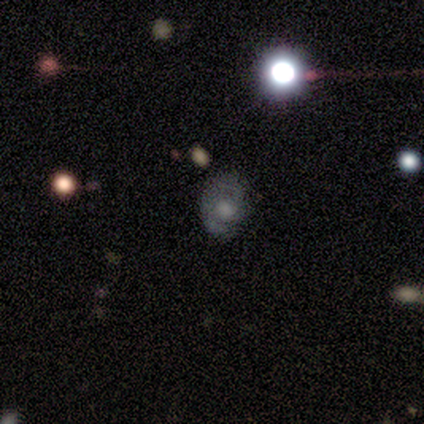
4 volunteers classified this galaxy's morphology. Smooth or featured: featured or disk — 75% (smooth — 25%)
Edge-on disk: no — 100%
Bar: no — 67% (weak — 33%)
Spiral arms: yes — 100%
Spiral winding: tight — 100%
Spiral arm count: 1 — 67% (3 — 33%)
Bulge size: moderate — 33% (tied with small — 33%; none — 33%)
Merging: none — 50% (minor disturbance — 25%)